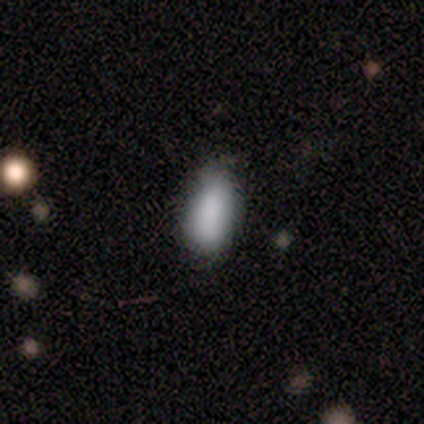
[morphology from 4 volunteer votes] type=smooth (75%); roundness=in between (67%); merging=none (75%).